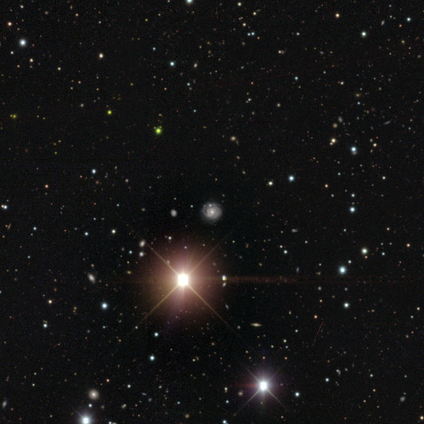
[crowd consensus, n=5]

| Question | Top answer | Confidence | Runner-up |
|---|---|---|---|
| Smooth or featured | star or artifact | 80% | featured or disk (20%) |